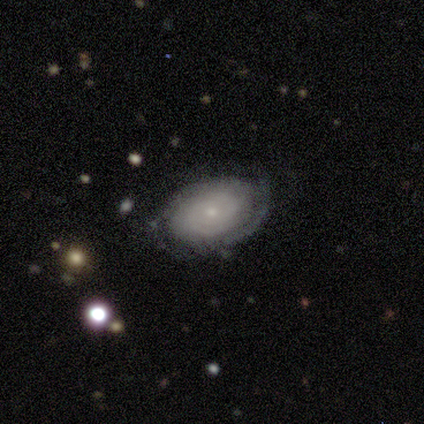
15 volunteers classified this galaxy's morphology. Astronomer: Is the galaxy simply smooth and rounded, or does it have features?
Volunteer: featured or disk — 80%.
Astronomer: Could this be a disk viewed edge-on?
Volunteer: no — 100%.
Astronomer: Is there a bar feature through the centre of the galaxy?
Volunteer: no — 83%.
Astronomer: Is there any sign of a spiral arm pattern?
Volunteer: yes — 92%.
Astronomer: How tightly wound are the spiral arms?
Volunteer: tight — 82%.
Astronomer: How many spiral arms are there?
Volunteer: can't tell — 55% (runner-up: 2, 36%).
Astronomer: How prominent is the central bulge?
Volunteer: small — 100%.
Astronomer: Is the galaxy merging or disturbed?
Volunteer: none — 73%.